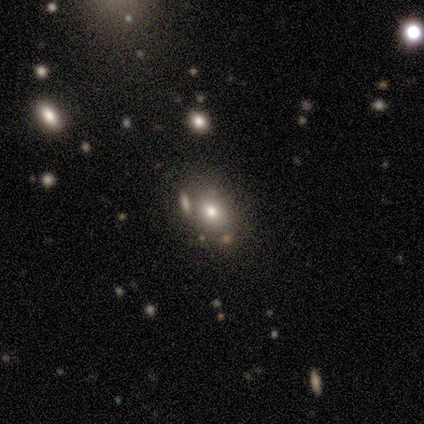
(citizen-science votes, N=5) A smooth galaxy with no disk features (60%) that is in between round and cigar-shaped (67%).

Vote fractions:
- Smooth or featured? smooth: 60% / star or artifact: 40% / featured or disk: 0%
- How rounded? in between: 67% / round: 33% / cigar-shaped: 0%
- Merging? none: 100% / minor disturbance: 0% / major disturbance: 0% / merger: 0%